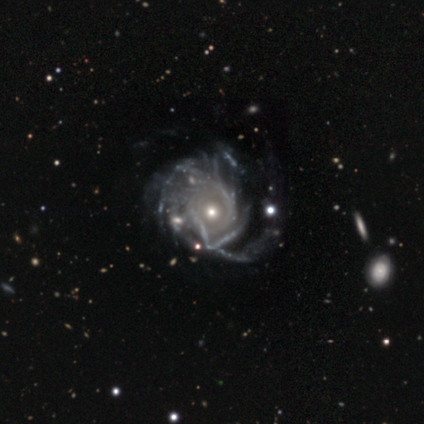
Q: Smooth or featured?
A: featured or disk (90%); runner-up: star or artifact (9%)
Q: Edge-on disk?
A: no (98%); runner-up: yes (2%)
Q: Bar?
A: no (95%); runner-up: strong (3%)
Q: Spiral arms?
A: yes (83%); runner-up: no (17%)
Q: Spiral winding?
A: tight (50%); runner-up: medium (34%)
Q: Spiral arm count?
A: can't tell (70%); runner-up: more than 4 (20%)
Q: Bulge size?
A: small (48%); runner-up: moderate (47%)
Q: Merging?
A: major disturbance (32%); runner-up: none (15%)